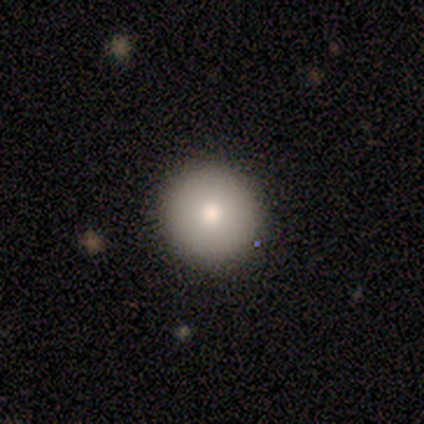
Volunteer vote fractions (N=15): A smooth galaxy with no disk features (67%) that is round (100%).

Vote fractions:
- Smooth or featured? smooth: 67% / featured or disk: 20% / star or artifact: 13%
- How rounded? round: 100% / in between: 0% / cigar-shaped: 0%
- Merging? none: 100% / minor disturbance: 0% / major disturbance: 0% / merger: 0%